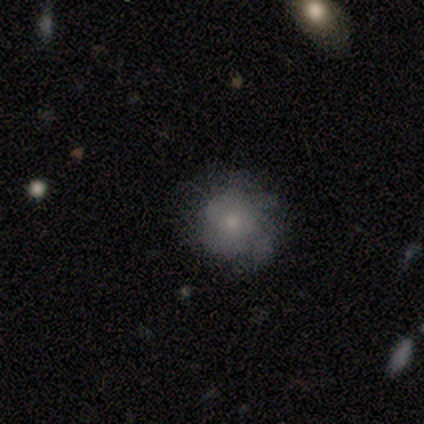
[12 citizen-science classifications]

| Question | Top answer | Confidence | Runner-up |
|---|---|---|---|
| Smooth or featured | smooth | 58% | featured or disk (42%) |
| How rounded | round | 71% | in between (29%) |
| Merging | none | 83% | minor disturbance (17%) |